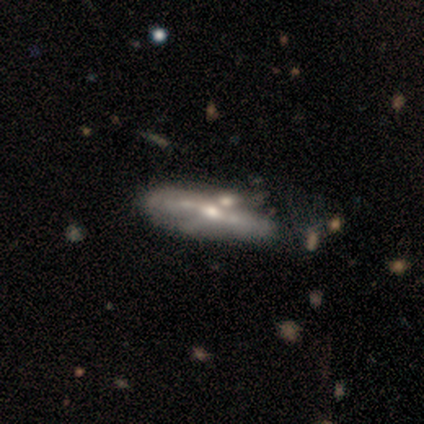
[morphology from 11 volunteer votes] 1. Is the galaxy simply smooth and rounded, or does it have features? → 82% featured or disk, 18% smooth, 0% star or artifact.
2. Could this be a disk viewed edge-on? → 56% no, 44% yes.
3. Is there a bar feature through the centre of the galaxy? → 80% no, 20% weak, 0% strong.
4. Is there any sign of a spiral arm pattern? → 60% no, 40% yes.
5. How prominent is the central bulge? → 60% moderate, 40% small, 0% dominant, 0% large, 0% none.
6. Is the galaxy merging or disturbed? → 55% none, 18% minor disturbance, 18% major disturbance, 9% merger.